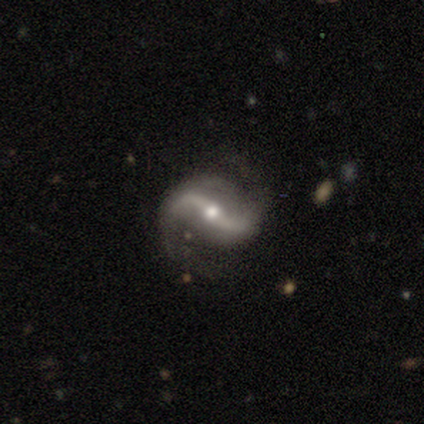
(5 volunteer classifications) smooth_or_featured: featured or disk (p=1.00)
disk_edge_on: no (p=1.00)
bar: strong (p=0.40) [tied with: weak p=0.40]
has_spiral_arms: yes (p=1.00)
spiral_winding: loose (p=0.60) [alt: medium p=0.40]
spiral_arm_count: 2 (p=1.00)
bulge_size: moderate (p=0.60) [alt: small p=0.40]
merging: none (p=1.00)